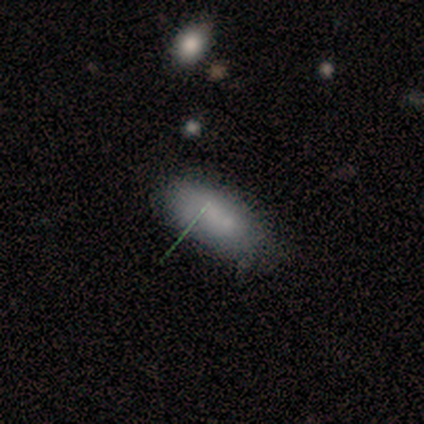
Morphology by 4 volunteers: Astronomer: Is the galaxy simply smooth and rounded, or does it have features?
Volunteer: smooth — 100%.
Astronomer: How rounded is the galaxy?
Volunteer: in between — 100%.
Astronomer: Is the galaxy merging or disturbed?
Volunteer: none — 75%.